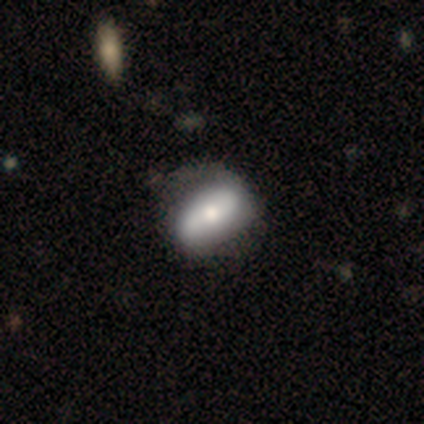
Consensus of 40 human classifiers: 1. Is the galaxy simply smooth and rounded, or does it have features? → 55% featured or disk, 45% smooth, 0% star or artifact.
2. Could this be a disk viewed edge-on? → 91% no, 9% yes.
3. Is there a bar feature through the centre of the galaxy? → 55% no, 25% strong, 20% weak.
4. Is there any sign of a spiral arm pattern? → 70% yes, 30% no.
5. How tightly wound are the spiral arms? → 57% loose, 36% tight, 7% medium.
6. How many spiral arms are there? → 93% 2, 7% 4, 0% 1, 0% 3, 0% more than 4, 0% can't tell.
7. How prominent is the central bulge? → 45% moderate, 30% small, 20% large, 5% none, 0% dominant.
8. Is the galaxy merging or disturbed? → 55% none, 18% minor disturbance, 12% major disturbance, 2% merger.